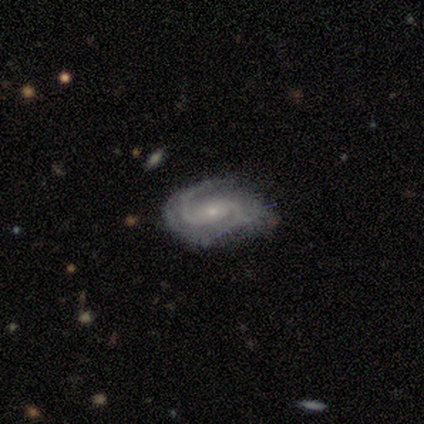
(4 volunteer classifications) Smooth or featured? featured or disk (100%)
Edge-on disk? no (75%)
Bar? weak (67%)
Spiral arms? yes (100%)
Spiral winding? tight (100%)
Spiral arm count? 2 (100%)
Bulge size? small (67%)
Merging? none (75%)